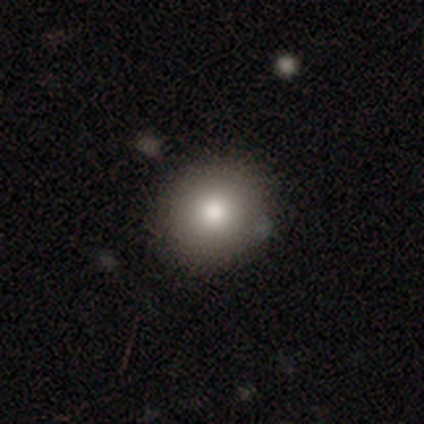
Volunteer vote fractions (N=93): Smooth or featured?
  - smooth: 82% *
  - star or artifact: 10%
  - featured or disk: 9%
How rounded?
  - round: 86% *
  - in between: 13%
  - cigar-shaped: 1%
Merging?
  - none: 87% *
  - minor disturbance: 11%
  - major disturbance: 2%
  - merger: 0%